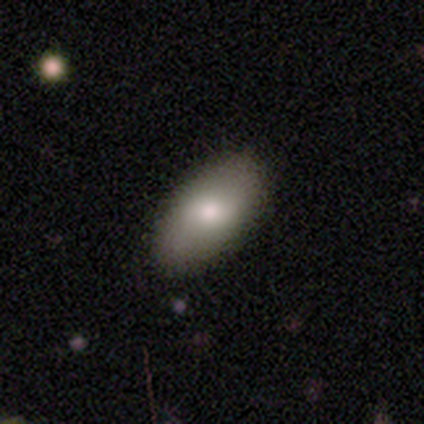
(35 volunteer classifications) Overall: smooth (80%). How rounded: in between (93%). Merging: none (79%).